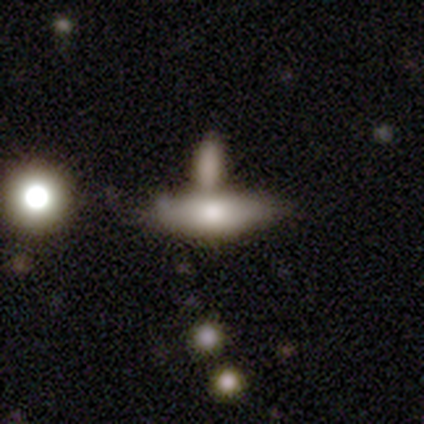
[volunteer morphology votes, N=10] A smooth galaxy with no disk features (60%) that is in between round and cigar-shaped (83%). Merging: merger (50%).